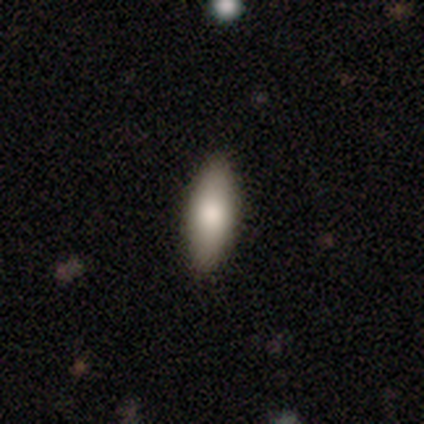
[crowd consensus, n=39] Smooth or featured? smooth (92%)
How rounded? in between (89%)
Merging? none (92%)